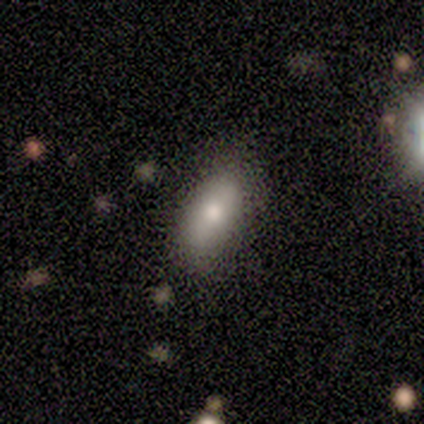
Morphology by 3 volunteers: A smooth galaxy with no disk features (67%) that is in between round and cigar-shaped (100%). Merging: none (50%, tied with minor disturbance).